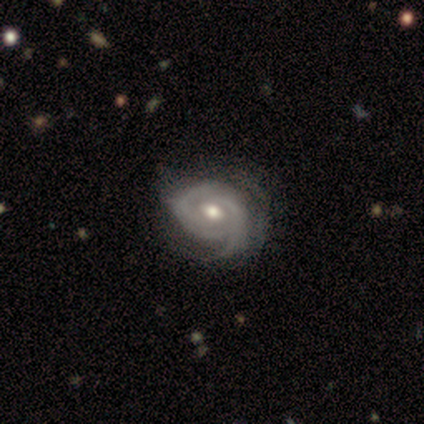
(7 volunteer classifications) Smooth or featured?
  - featured or disk: 100% *
  - smooth: 0%
  - star or artifact: 0%
Edge-on disk?
  - no: 100% *
  - yes: 0%
Bar?
  - no: 71% *
  - strong: 14%
  - weak: 14%
Spiral arms?
  - yes: 100% *
  - no: 0%
Spiral winding?
  - tight: 57% *
  - medium: 43%
  - loose: 0%
Spiral arm count?
  - 2: 71% *
  - 3: 14%
  - more than 4: 14%
  - 1: 0%
  - 4: 0%
  - can't tell: 0%
Bulge size?
  - moderate: 86% *
  - small: 14%
  - dominant: 0%
  - large: 0%
  - none: 0%
Merging?
  - none: 57% *
  - minor disturbance: 43%
  - major disturbance: 0%
  - merger: 0%